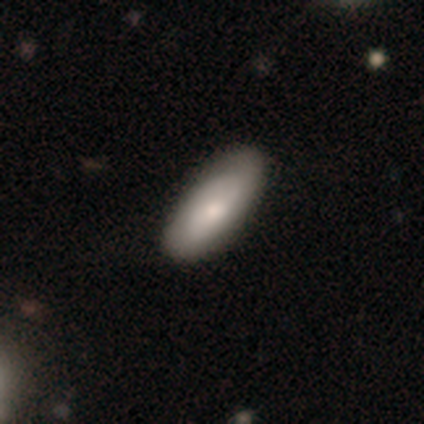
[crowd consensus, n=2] Smooth or featured? smooth (100%)
How rounded? in between (100%)
Merging? none (100%)